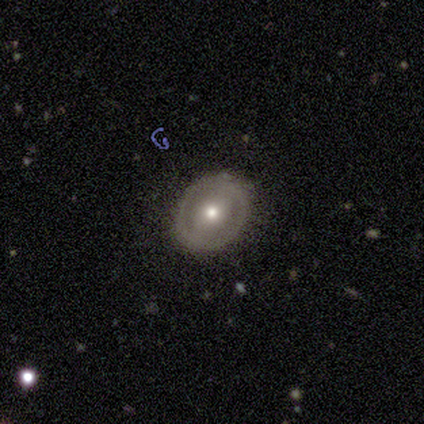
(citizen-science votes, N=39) This appears to be a featured or disk galaxy (67%) with a weak bar (48%), no spiral arms (92%) and a moderate central bulge (60%). Merging: none (89%).